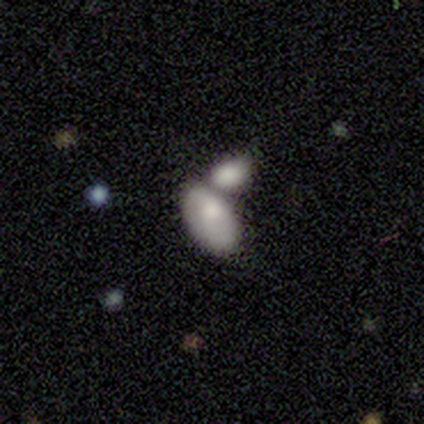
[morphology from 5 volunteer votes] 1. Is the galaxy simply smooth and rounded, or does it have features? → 80% smooth, 20% featured or disk, 0% star or artifact.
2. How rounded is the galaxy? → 100% in between, 0% round, 0% cigar-shaped.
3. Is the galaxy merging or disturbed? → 100% merger, 0% none, 0% minor disturbance, 0% major disturbance.